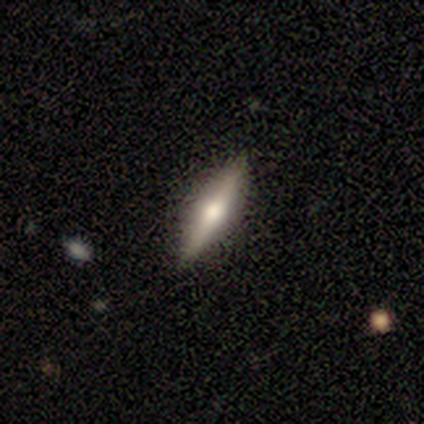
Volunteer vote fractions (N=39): Smooth or featured?
  - featured or disk: 85% *
  - smooth: 13%
  - star or artifact: 3%
Edge-on disk?
  - yes: 97% *
  - no: 3%
Edge-on bulge?
  - rounded: 97% *
  - none: 3%
  - boxy: 0%
Merging?
  - none: 82% *
  - minor disturbance: 0%
  - major disturbance: 0%
  - merger: 0%